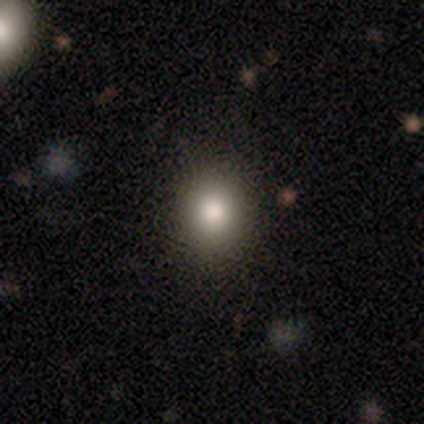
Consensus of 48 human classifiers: Volunteers were most divided on "how rounded": round: 78%, in between: 22%, cigar-shaped: 0%. More confident: merging — none (98%); smooth or featured — smooth (83%).